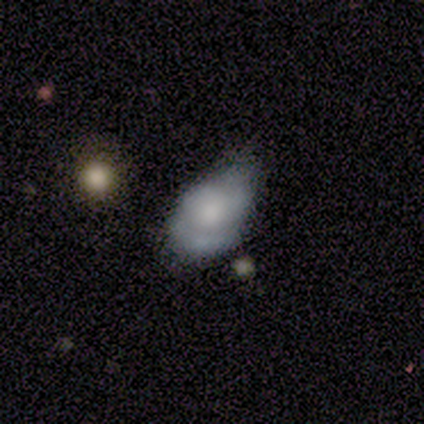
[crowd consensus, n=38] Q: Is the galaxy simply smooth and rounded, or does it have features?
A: featured or disk — 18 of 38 (47%).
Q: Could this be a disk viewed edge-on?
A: no — 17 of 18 (94%).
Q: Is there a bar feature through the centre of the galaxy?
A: no — 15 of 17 (88%).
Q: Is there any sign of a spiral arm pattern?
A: yes — 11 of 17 (65%).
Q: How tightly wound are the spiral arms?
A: tight — 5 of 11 (45%).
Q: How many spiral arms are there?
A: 2 — 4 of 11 (36%, tied with can't tell).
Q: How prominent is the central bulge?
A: moderate — 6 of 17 (35%, tied with small).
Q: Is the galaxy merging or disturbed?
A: minor disturbance — 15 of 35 (43%).